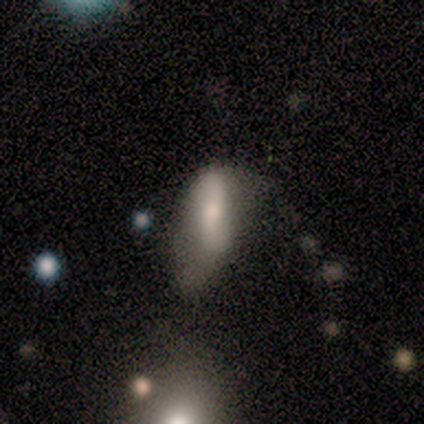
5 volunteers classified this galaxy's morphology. Smooth or featured? 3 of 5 (60%) said featured or disk. Edge-on disk? 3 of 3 (100%) said no. Bar? 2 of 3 (67%) said no. Spiral arms? 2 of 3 (67%) said no. Bulge size? 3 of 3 (100%) said moderate. Merging? 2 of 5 (40%) said minor disturbance.